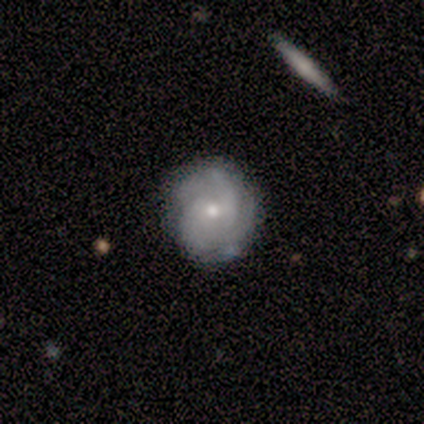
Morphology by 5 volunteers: Smooth or featured? featured or disk (100%)
Edge-on disk? no (100%)
Bar? no (80%)
Spiral arms? yes (100%)
Spiral winding? medium (60%)
Spiral arm count? 4 (40%)
Bulge size? small (60%)
Merging? none (80%)